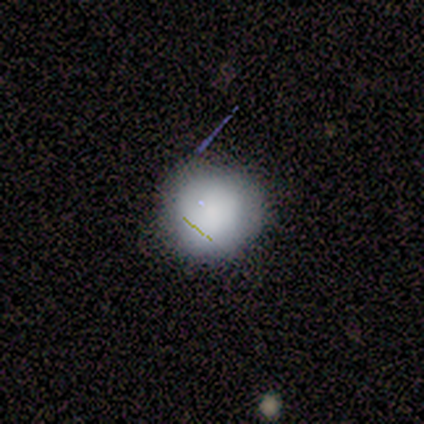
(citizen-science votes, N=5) Morphology: type=smooth (80%); roundness=round (100%); merging=none (100%).